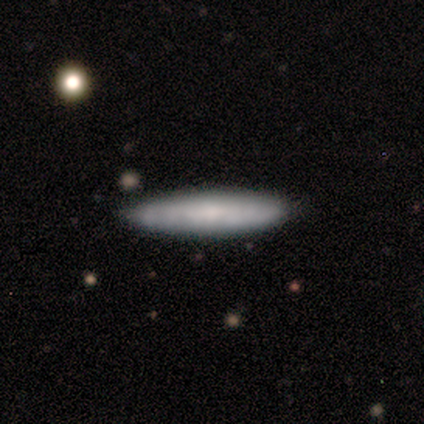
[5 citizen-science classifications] Q: Smooth or featured?
A: smooth (60%); runner-up: featured or disk (40%)
Q: How rounded?
A: cigar-shaped (100%)
Q: Merging?
A: none (80%); runner-up: major disturbance (20%)